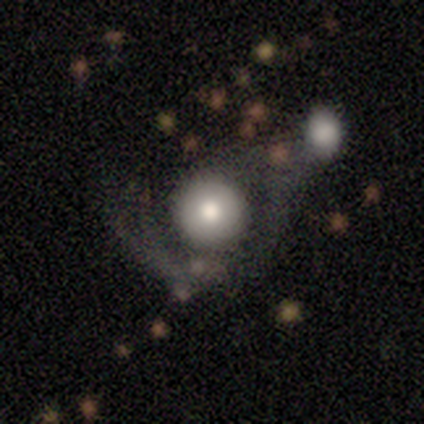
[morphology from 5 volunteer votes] smooth-or-featured: featured or disk: 60% | smooth: 40% | star or artifact: 0%
  disk-edge-on: no: 67% | yes: 33%
    bar: no: 100% | strong: 0% | weak: 0%
    has-spiral-arms: yes: 50% (tied) | no: 50% (tied)
      spiral-winding: medium: 100% | tight: 0% | loose: 0%
      spiral-arm-count: can't tell: 100% | 1: 0% | 2: 0% | 3: 0% | 4: 0% | more than 4: 0%
    bulge-size: large: 50% (tied) | moderate: 50% (tied) | dominant: 0% | small: 0% | none: 0%
  merging: major disturbance: 40% | none: 20% | minor disturbance: 20% | merger: 20%